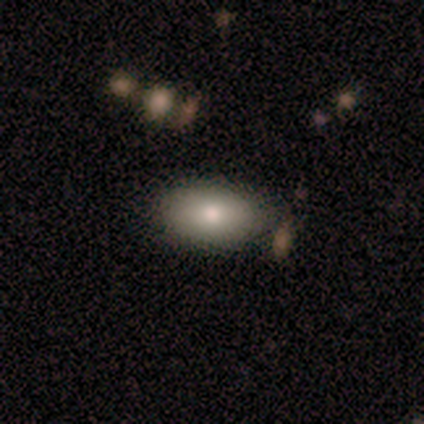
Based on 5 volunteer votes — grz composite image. It shows a smooth galaxy with no disk features (60%) that is in between round and cigar-shaped (100%). Merging: none (100%).